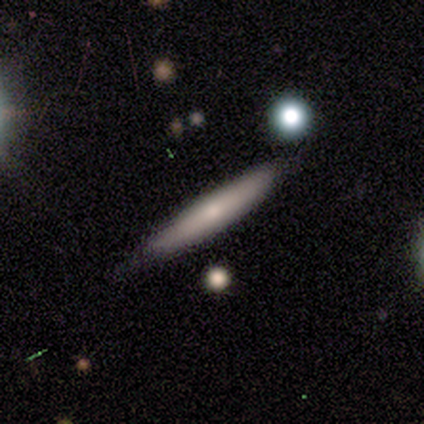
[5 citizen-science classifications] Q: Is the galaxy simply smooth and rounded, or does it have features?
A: featured or disk — 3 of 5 (60%).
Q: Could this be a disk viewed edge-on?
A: yes — 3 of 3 (100%).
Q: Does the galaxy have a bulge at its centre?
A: none — 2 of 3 (67%).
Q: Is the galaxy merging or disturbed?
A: none — 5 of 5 (100%).